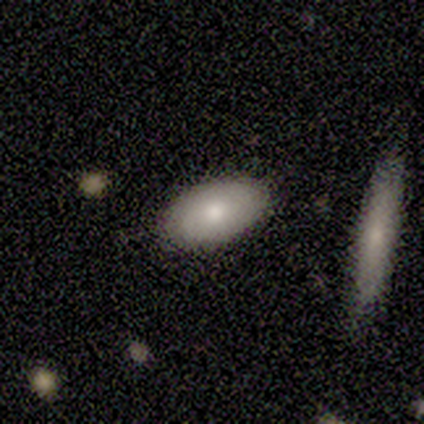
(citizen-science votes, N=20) Smooth or featured? smooth (65%)
How rounded? in between (100%)
Merging? none (95%)